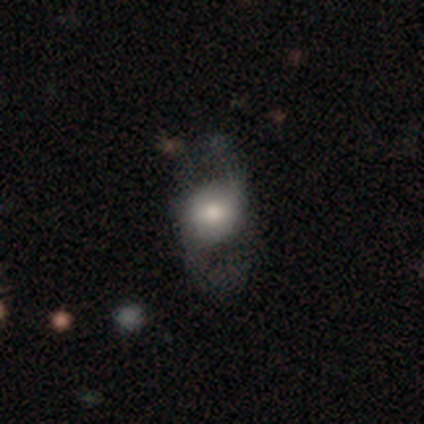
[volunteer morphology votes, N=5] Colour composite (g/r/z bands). It shows a featured or disk galaxy (60%) with a weak bar (50%, tied with no), 2 (100%) medium (50%, tied with loose) spiral arms (100%) and a large central bulge (50%, tied with small). Merging: none (60%).